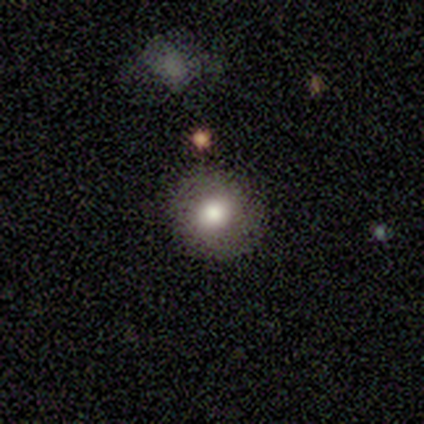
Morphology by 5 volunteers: smooth_or_featured: smooth (p=0.80) [alt: featured or disk p=0.20]
how_rounded: round (p=0.75) [alt: in between p=0.25]
merging: none (p=1.00)